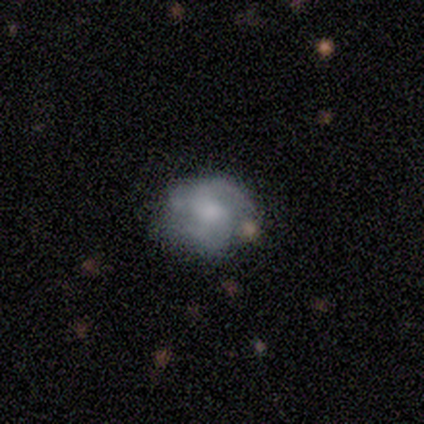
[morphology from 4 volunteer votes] Overall: featured or disk (100%). Edge-on disk: no (100%). Bar: weak (50%, tied with no). Spiral arms: yes (100%). Spiral arm count: 2 (50%; 1 25%). Spiral winding: medium (75%). Bulge size: moderate (75%). Merging: none (75%).